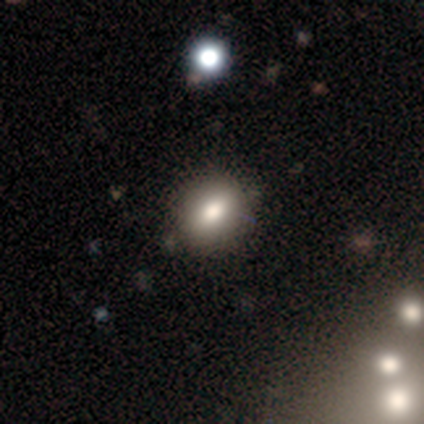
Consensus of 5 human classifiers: This appears to be a smooth galaxy with no disk features (60%) that is in between round and cigar-shaped (67%). Merging: none (100%).